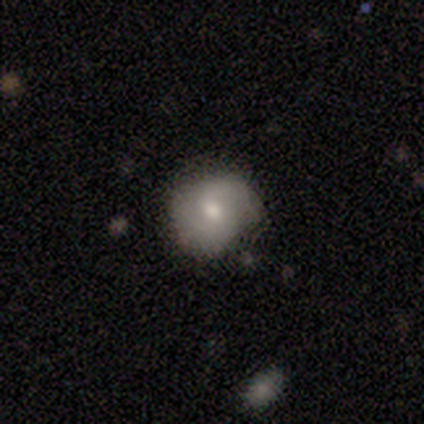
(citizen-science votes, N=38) smooth-or-featured: smooth: 50% | featured or disk: 39% | star or artifact: 11%
  how-rounded: round: 68% | in between: 26% | cigar-shaped: 5%
  merging: none: 71% | minor disturbance: 21% | major disturbance: 6% | merger: 3%